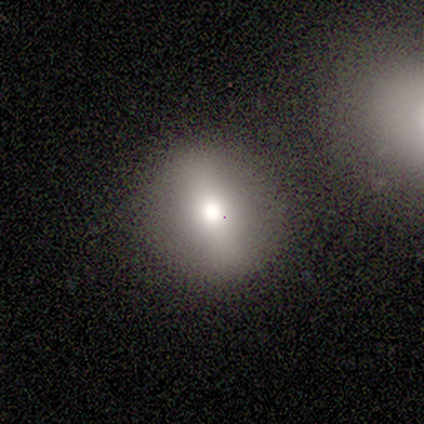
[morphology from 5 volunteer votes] Overall: smooth (100%). How rounded: round (80%). Merging: none (100%).